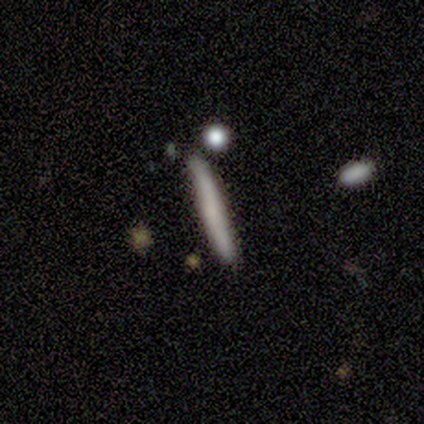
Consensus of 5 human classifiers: Consensus on every question: smooth or featured — smooth (100%); how rounded — cigar-shaped (100%); merging — none (100%).